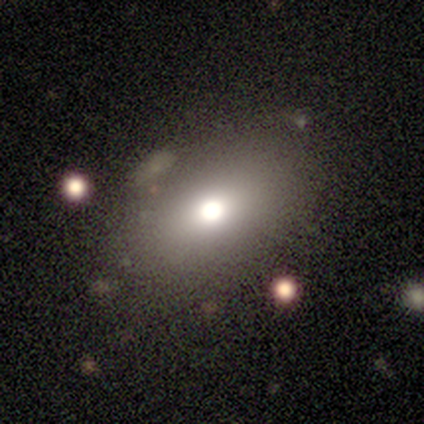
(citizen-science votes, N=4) Smooth or featured? smooth (75%)
How rounded? in between (67%)
Merging? none (67%)